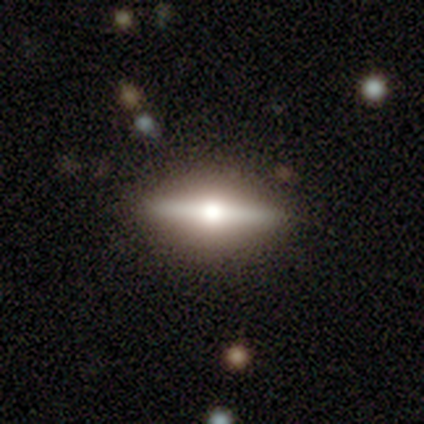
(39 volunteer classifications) Smooth or featured? featured or disk (72%)
Edge-on disk? yes (96%)
Edge-on bulge? rounded (96%)
Merging? none (62%)